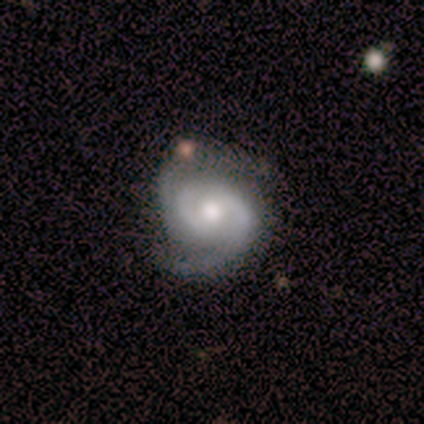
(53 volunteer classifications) Smooth or featured? 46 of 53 (87%) said featured or disk. Edge-on disk? 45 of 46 (98%) said no. Bar? 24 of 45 (53%) said no. Spiral arms? 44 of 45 (98%) said yes. Spiral winding? 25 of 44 (57%) said medium. Spiral arm count? 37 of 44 (84%) said 2. Bulge size? 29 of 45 (64%) said moderate. Merging? 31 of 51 (61%) said none.